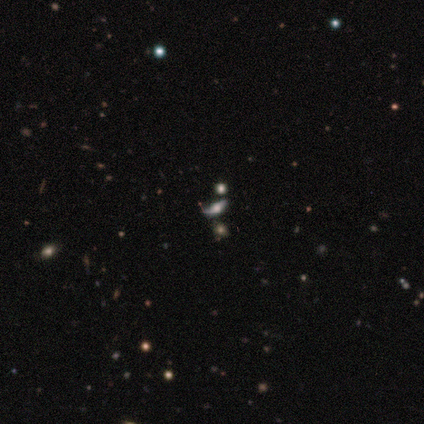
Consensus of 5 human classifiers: Smooth or featured?
  - featured or disk: 60% *
  - star or artifact: 40%
  - smooth: 0%
Edge-on disk?
  - no: 67% *
  - yes: 33%
Bar?
  - strong: 50% * (tied)
  - no: 50% * (tied)
  - weak: 0%
Spiral arms?
  - yes: 100% *
  - no: 0%
Spiral winding?
  - loose: 100% *
  - tight: 0%
  - medium: 0%
Spiral arm count?
  - 1: 50% * (tied)
  - 2: 50% * (tied)
  - 3: 0%
  - 4: 0%
  - more than 4: 0%
  - can't tell: 0%
Bulge size?
  - dominant: 50% * (tied)
  - large: 50% * (tied)
  - moderate: 0%
  - small: 0%
  - none: 0%
Merging?
  - none: 33% * (tied)
  - major disturbance: 33% * (tied)
  - merger: 33% * (tied)
  - minor disturbance: 0%